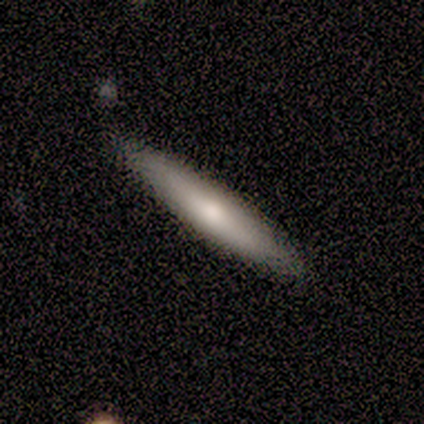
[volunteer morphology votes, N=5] A smooth galaxy with no disk features (60%) that is cigar-shaped (100%). Merging: none (80%).